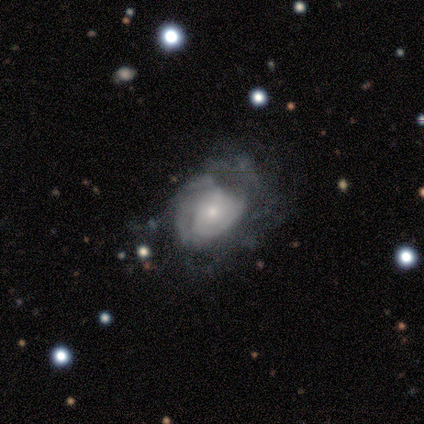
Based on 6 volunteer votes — featured or disk 83%, smooth 17%, star or artifact 0%. Down the decision tree: edge-on disk — no (100%); bar — no (80%); spiral arms — yes (80%); spiral arm count — can't tell (75%); spiral winding — tight (75%); bulge size — moderate (60%); merging — none (33%, tied with minor disturbance and major disturbance).